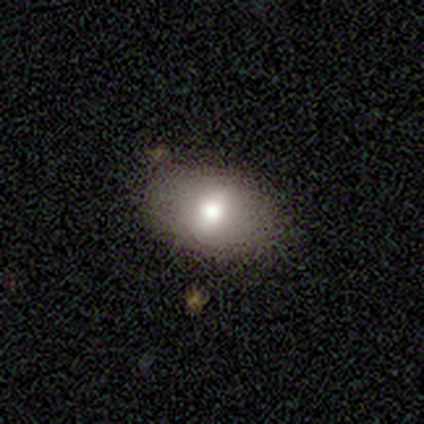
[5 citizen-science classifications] smooth-or-featured: smooth: 40% (tied) | featured or disk: 40% (tied) | star or artifact: 20%
  how-rounded: round: 50% (tied) | in between: 50% (tied) | cigar-shaped: 0%
  merging: none: 100% | minor disturbance: 0% | major disturbance: 0% | merger: 0%